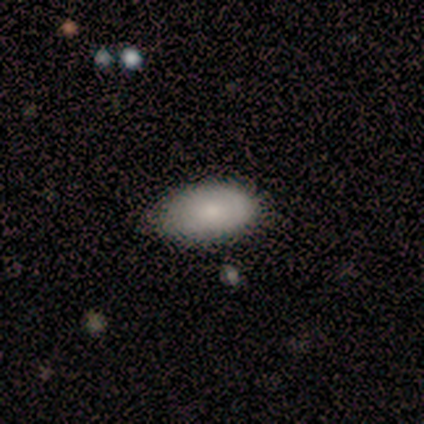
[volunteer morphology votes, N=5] A smooth galaxy with no disk features (100%) that is in between round and cigar-shaped (100%).

Vote fractions:
- Smooth or featured? smooth: 100% / featured or disk: 0% / star or artifact: 0%
- How rounded? in between: 100% / round: 0% / cigar-shaped: 0%
- Merging? none: 80% / minor disturbance: 20% / major disturbance: 0% / merger: 0%